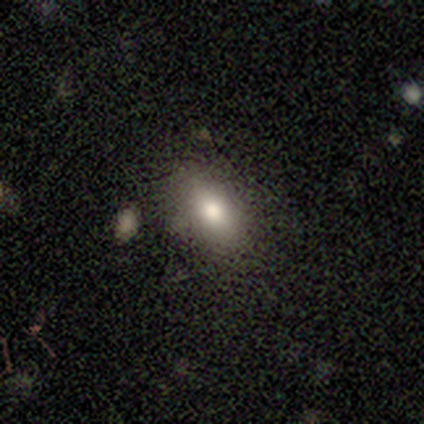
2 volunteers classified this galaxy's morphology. Smooth or featured?
  - smooth: 100% *
  - featured or disk: 0%
  - star or artifact: 0%
How rounded?
  - round: 50% * (tied)
  - in between: 50% * (tied)
  - cigar-shaped: 0%
Merging?
  - none: 100% *
  - minor disturbance: 0%
  - major disturbance: 0%
  - merger: 0%